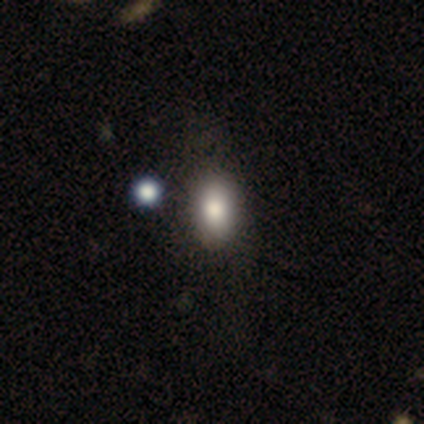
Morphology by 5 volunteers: This appears to be a smooth galaxy with no disk features (100%) that is in between round and cigar-shaped (80%). Merging: none (100%).